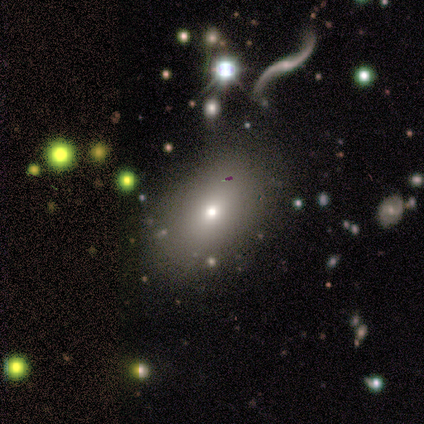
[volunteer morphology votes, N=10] smooth_or_featured: smooth (p=0.70) [alt: featured or disk p=0.30]
how_rounded: in between (p=1.00)
merging: none (p=0.80) [alt: minor disturbance p=0.10]